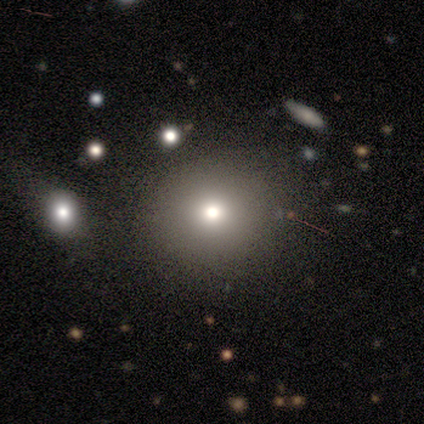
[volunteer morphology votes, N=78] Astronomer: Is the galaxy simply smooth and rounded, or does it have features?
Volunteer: smooth — 68%.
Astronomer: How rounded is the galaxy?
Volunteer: round — 94%.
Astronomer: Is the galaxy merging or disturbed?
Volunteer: none — 64%.